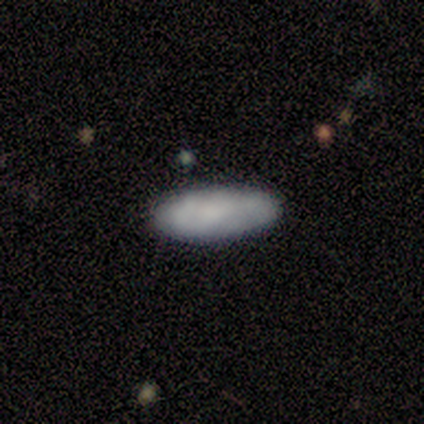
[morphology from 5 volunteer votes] A smooth galaxy with no disk features (80%) that is in between round and cigar-shaped (75%). Merging: none (60%).